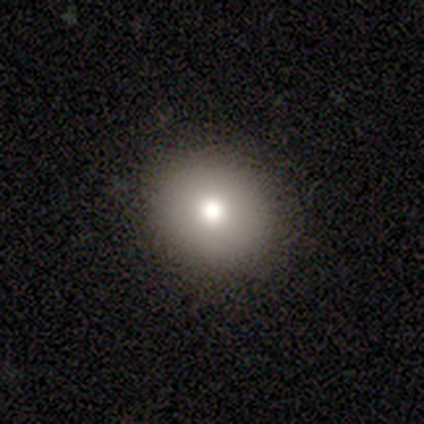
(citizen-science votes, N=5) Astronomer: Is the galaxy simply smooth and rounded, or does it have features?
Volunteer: smooth — 60% (runner-up: featured or disk, 40%).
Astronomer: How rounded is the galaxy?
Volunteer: round — 67%.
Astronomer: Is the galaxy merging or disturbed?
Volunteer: none — 100%.